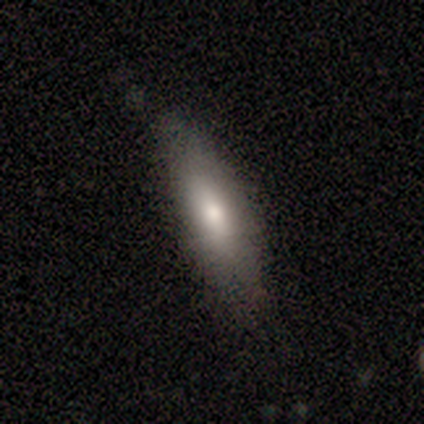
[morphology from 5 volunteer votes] Smooth or featured? 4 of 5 (80%) said smooth. How rounded? 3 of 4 (75%) said in between. Merging? 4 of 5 (80%) said none.